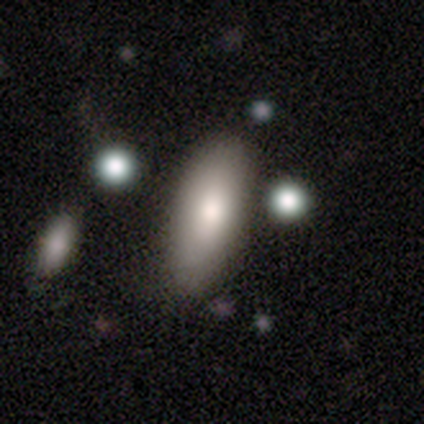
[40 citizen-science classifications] smooth-or-featured: smooth: 75% | featured or disk: 20% | star or artifact: 5%
  how-rounded: in between: 83% | cigar-shaped: 17% | round: 0%
  merging: none: 63% | merger: 8% | minor disturbance: 5% | major disturbance: 0%